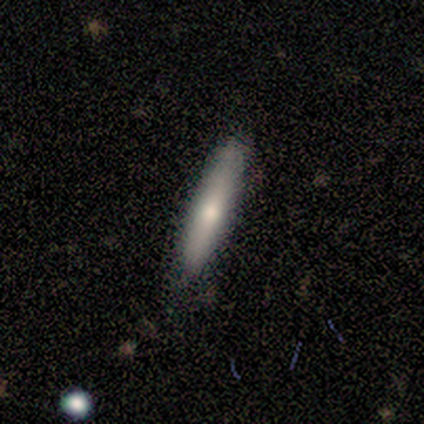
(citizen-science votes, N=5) Smooth or featured? 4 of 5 (80%) said smooth. How rounded? 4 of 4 (100%) said cigar-shaped. Merging? 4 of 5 (80%) said none.